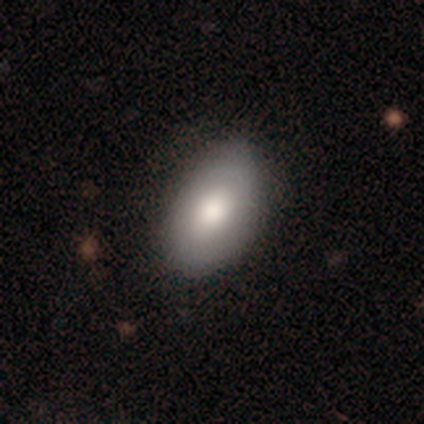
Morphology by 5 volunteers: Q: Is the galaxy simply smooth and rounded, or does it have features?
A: smooth — 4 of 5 (80%).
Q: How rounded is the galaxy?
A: in between — 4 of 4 (100%).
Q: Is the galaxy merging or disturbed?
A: none — 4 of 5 (80%).